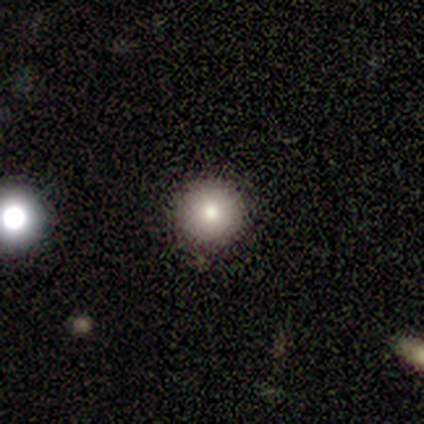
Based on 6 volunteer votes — star or artifact 50%, featured or disk 33%, smooth 17%.